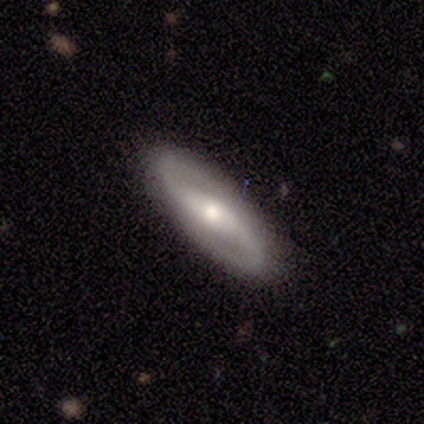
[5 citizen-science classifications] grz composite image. It shows a featured or disk galaxy (100%) with a weak bar (40%, tied with no), 2 (100%) loose (60%) spiral arms (100%) and a moderate central bulge (60%). Merging: none (80%).